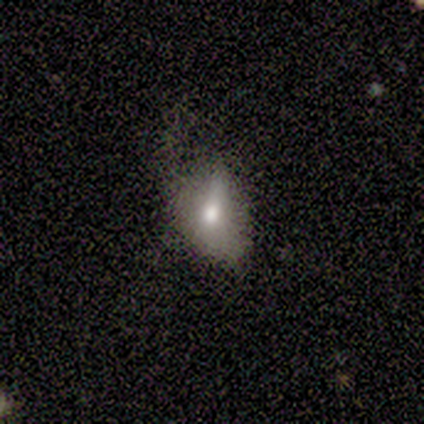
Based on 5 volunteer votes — smooth 60%, featured or disk 20%, star or artifact 20%. Down the decision tree: how rounded — in between (67%); merging — minor disturbance (75%).